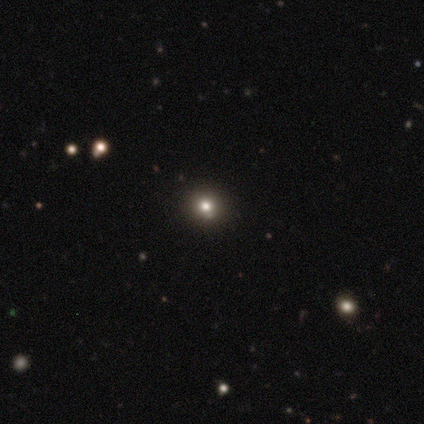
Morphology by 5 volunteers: featured or disk 40% (tied), star or artifact 40% (tied), smooth 20%. Down the decision tree: edge-on disk — no (100%); bar — strong (50%, tied with no); spiral arms — yes (50%, tied with no); spiral arm count — more than 4 (100%); spiral winding — medium (100%); bulge size — moderate (100%); merging — none (67%).